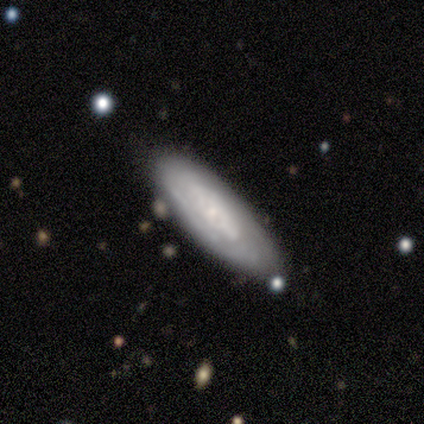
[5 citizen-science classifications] featured or disk 60%, smooth 40%, star or artifact 0%. Down the decision tree: edge-on disk — no (67%); bar — no (100%); spiral arms — yes (50%, tied with no); spiral arm count — can't tell (100%); spiral winding — tight (100%); bulge size — moderate (50%, tied with none); merging — none (40%, tied with major disturbance).